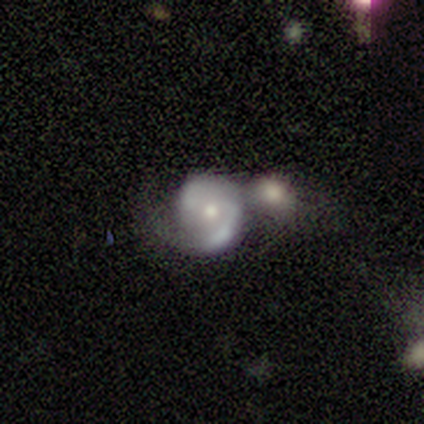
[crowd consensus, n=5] Smooth or featured: featured or disk — 80% (smooth — 20%)
Edge-on disk: no — 100%
Bar: no — 75% (weak — 25%)
Spiral arms: yes — 100%
Spiral winding: medium — 100%
Spiral arm count: 1 — 50% (tied with 2 — 50%)
Bulge size: moderate — 50% (tied with small — 50%)
Merging: none — 40% (tied with merger — 40%)